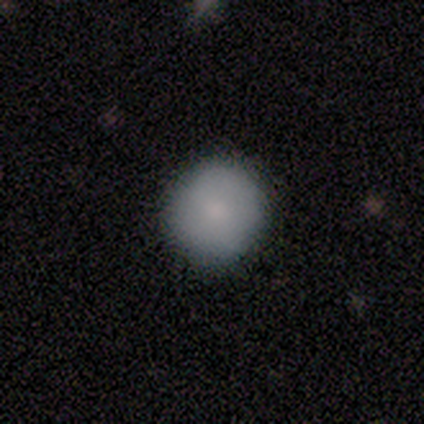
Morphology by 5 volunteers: This appears to be a smooth galaxy with no disk features (80%) that is round (100%). Merging: none (80%).